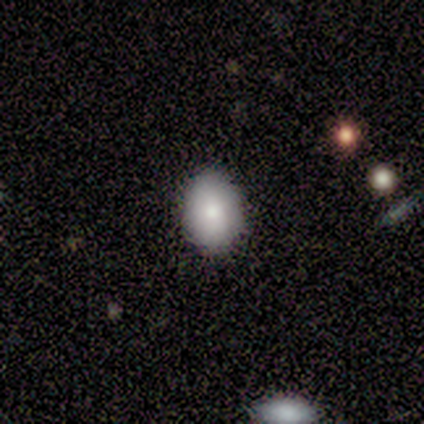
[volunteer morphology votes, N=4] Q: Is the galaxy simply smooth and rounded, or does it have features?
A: smooth — 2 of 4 (50%, tied with featured or disk).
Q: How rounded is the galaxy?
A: in between — 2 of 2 (100%).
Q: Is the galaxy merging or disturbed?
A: none — 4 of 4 (100%).